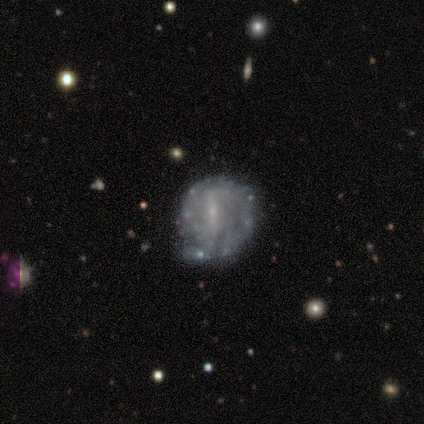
A featured or disk galaxy (81%) with a strong bar (43%), tight (58%) spiral arms (70%) and a small central bulge (70%).

Vote fractions:
- Smooth or featured? featured or disk: 81% / smooth: 11% / star or artifact: 7%
- Edge-on disk? no: 100% / yes: 0%
- Bar? strong: 43% / weak: 41% / no: 16%
- Spiral arms? yes: 70% / no: 30%
- Spiral winding? tight: 58% / medium: 29% / loose: 13%
- Spiral arm count? can't tell: 48% / 2: 13% / 3: 13% / 4: 10% / more than 4: 10% / 1: 6%
- Bulge size? small: 70% / none: 25% / moderate: 5% / dominant: 0% / large: 0%
- Merging? none: 48% / minor disturbance: 44% / merger: 6% / major disturbance: 2%